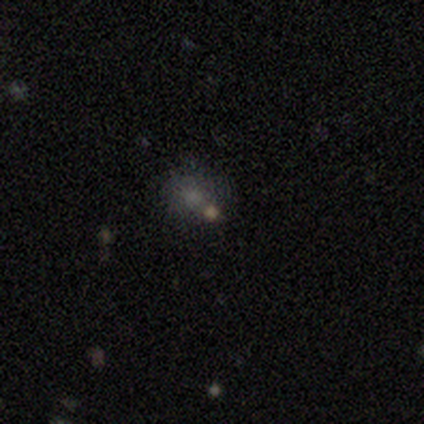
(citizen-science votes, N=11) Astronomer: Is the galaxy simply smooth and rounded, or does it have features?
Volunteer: smooth — 45% (runner-up: star or artifact, 36%).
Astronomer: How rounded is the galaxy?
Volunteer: round — 80%.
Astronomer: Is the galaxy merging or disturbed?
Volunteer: none — 71%.